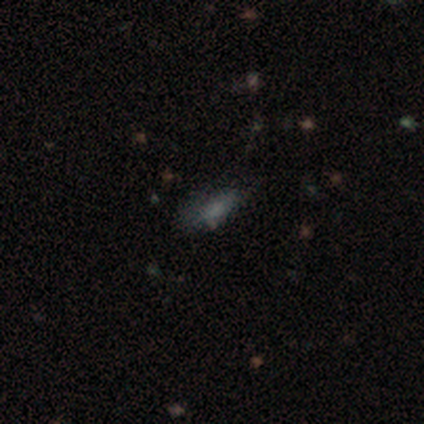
smooth-or-featured: smooth: 60% | star or artifact: 40% | featured or disk: 0%
  how-rounded: in between: 67% | round: 33% | cigar-shaped: 0%
  merging: minor disturbance: 67% | none: 33% | major disturbance: 0% | merger: 0%